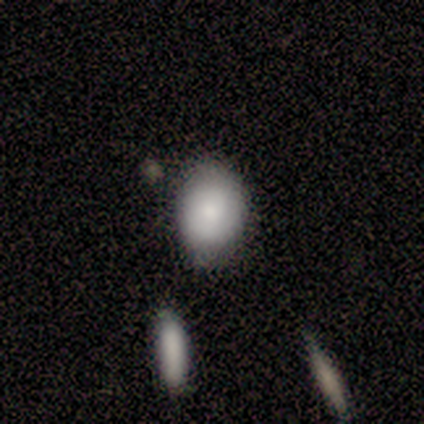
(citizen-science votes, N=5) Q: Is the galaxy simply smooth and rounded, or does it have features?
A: smooth — 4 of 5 (80%).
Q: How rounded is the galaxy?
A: round — 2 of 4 (50%, tied with in between).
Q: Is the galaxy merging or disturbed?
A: none — 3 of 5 (60%).